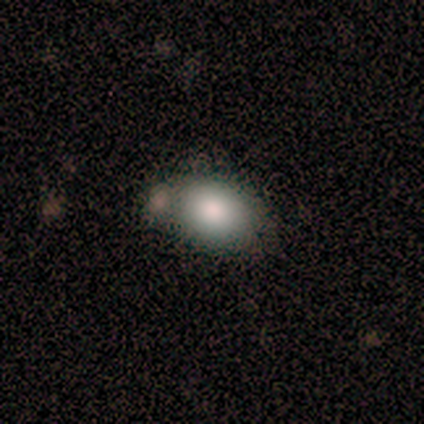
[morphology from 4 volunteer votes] This appears to be a smooth galaxy with no disk features (100%) that is in between round and cigar-shaped (75%). Merging: minor disturbance (50%).